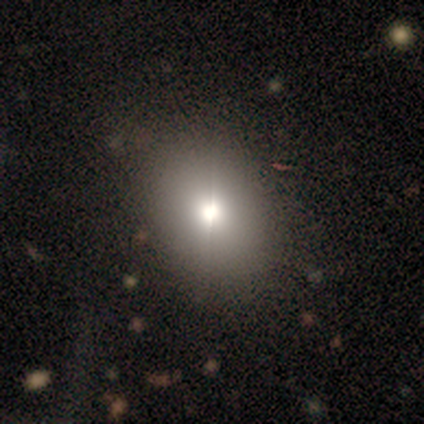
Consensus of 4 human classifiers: A smooth galaxy with no disk features (100%) that is round (75%). Merging: none (75%).